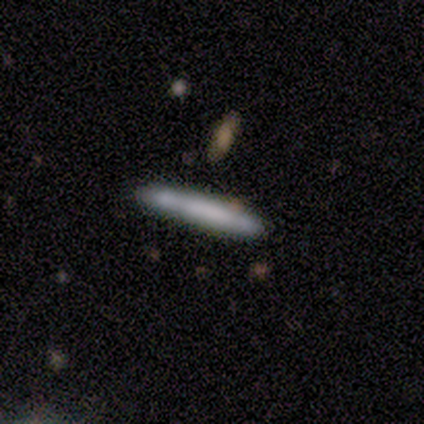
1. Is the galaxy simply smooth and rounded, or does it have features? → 78% smooth, 22% featured or disk, 0% star or artifact.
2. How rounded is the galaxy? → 86% cigar-shaped, 14% in between, 0% round.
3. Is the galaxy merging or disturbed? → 56% none, 22% minor disturbance, 22% merger, 0% major disturbance.